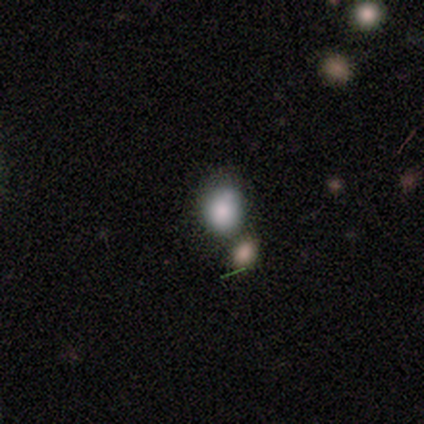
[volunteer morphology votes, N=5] Q: Smooth or featured?
A: smooth (60%); runner-up: featured or disk (20%)
Q: How rounded?
A: round (67%); runner-up: in between (33%)
Q: Merging?
A: none (50%); runner-up: minor disturbance (25%)